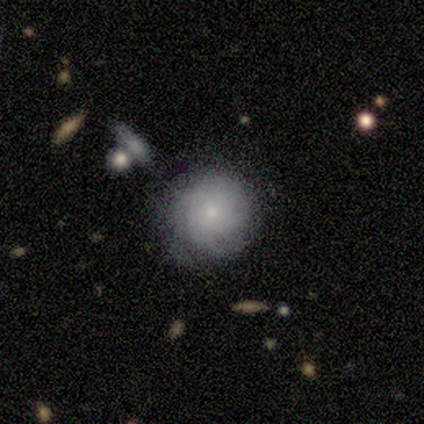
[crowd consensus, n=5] Smooth or featured? 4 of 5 (80%) said featured or disk. Edge-on disk? 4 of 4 (100%) said no. Bar? 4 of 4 (100%) said no. Spiral arms? 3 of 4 (75%) said yes. Spiral winding? 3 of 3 (100%) said tight. Spiral arm count? 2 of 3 (67%) said can't tell. Bulge size? 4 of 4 (100%) said small. Merging? 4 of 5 (80%) said none.